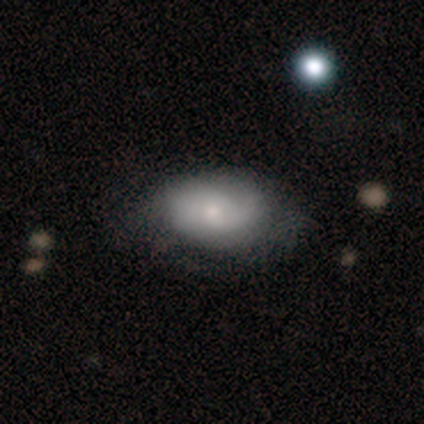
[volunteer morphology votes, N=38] Smooth or featured: smooth — 58% (featured or disk — 37%)
How rounded: in between — 86% (round — 14%)
Merging: none — 47% (minor disturbance — 42%)